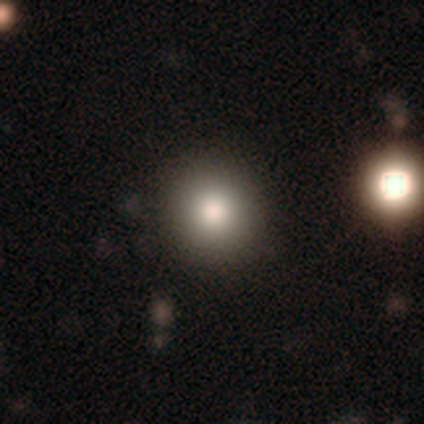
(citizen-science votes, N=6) Smooth or featured?
  - smooth: 83% *
  - featured or disk: 17%
  - star or artifact: 0%
How rounded?
  - round: 100% *
  - in between: 0%
  - cigar-shaped: 0%
Merging?
  - none: 67% *
  - minor disturbance: 17%
  - merger: 17%
  - major disturbance: 0%